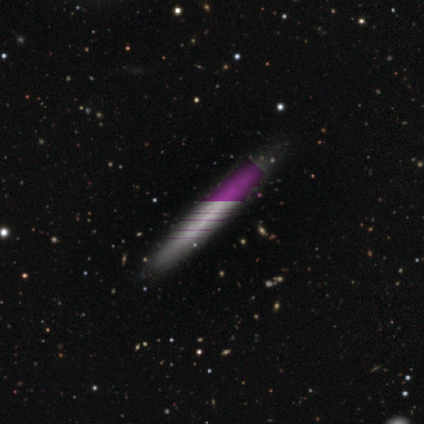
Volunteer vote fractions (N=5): smooth-or-featured: featured or disk: 40% (tied) | star or artifact: 40% (tied) | smooth: 20%
  disk-edge-on: no: 100% | yes: 0%
    bar: strong: 50% (tied) | weak: 50% (tied) | no: 0%
    has-spiral-arms: yes: 50% (tied) | no: 50% (tied)
      spiral-winding: tight: 100% | medium: 0% | loose: 0%
      spiral-arm-count: can't tell: 100% | 1: 0% | 2: 0% | 3: 0% | 4: 0% | more than 4: 0%
    bulge-size: none: 100% | dominant: 0% | large: 0% | moderate: 0% | small: 0%
  merging: none: 100% | minor disturbance: 0% | major disturbance: 0% | merger: 0%